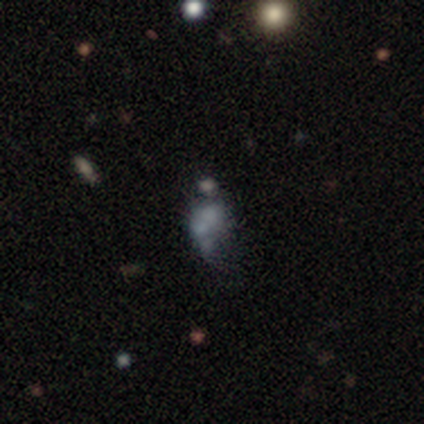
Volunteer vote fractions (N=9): smooth_or_featured: smooth (p=0.44) [tied with: featured or disk p=0.44]
how_rounded: in between (p=0.75) [alt: round p=0.25]
merging: minor disturbance (p=0.50) [alt: none p=0.38]